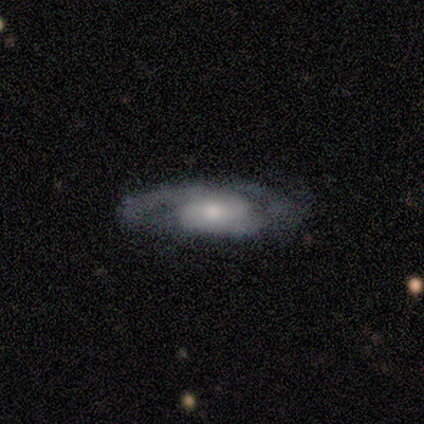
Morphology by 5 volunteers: Volunteers were most divided on "bulge size" (3-way tie): large: 33%, moderate: 33%, small: 33%, dominant: 0%, none: 0%. More confident: bar — no (100%); merging — none (100%); smooth or featured — featured or disk (80%); edge-on disk — no (75%); spiral arms — no (67%).